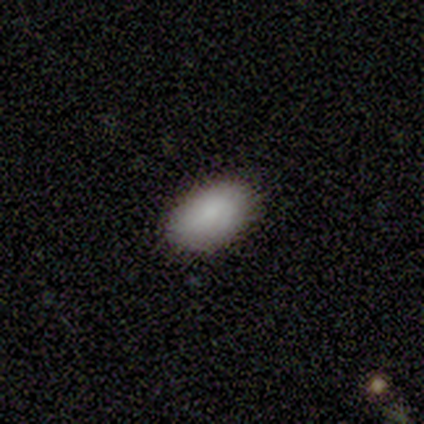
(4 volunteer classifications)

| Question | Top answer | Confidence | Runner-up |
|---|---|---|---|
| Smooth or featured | smooth | 100% | — |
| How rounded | in between | 100% | — |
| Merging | none | 100% | — |